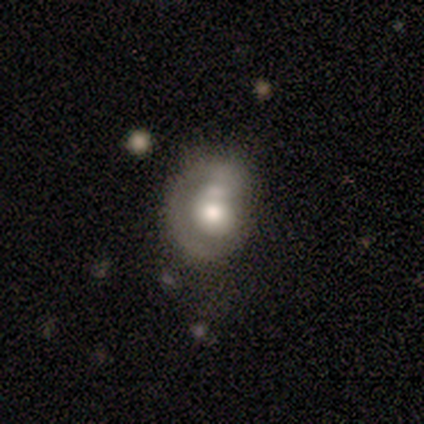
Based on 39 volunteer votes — Smooth or featured? 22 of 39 (56%) said featured or disk. Edge-on disk? 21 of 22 (95%) said no. Bar? 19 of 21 (90%) said no. Spiral arms? 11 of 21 (52%) said no. Bulge size? 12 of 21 (57%) said moderate. Merging? 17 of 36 (47%) said minor disturbance.